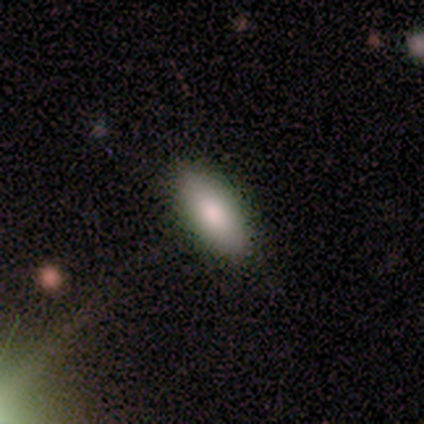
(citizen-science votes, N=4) Overall: smooth (75%). How rounded: in between (100%). Merging: none (100%).